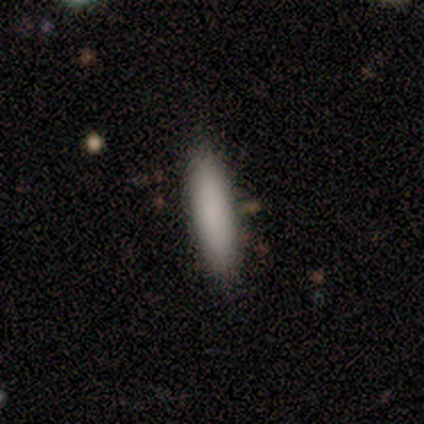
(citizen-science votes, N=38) Smooth or featured: smooth — 89% (featured or disk — 5%)
How rounded: cigar-shaped — 79% (in between — 21%)
Merging: none — 94% (minor disturbance — 6%)